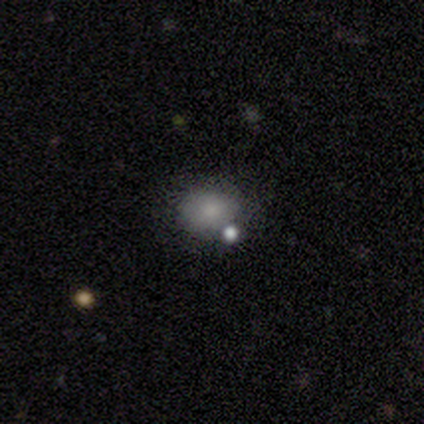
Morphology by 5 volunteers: This is clearly a smooth galaxy (80%). How rounded: clearly in between (100%). Merging: possibly none (50%).